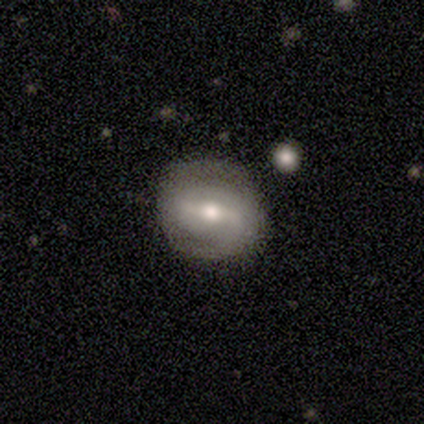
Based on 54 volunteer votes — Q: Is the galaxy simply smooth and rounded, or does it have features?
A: featured or disk — 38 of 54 (70%).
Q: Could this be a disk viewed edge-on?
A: no — 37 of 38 (97%).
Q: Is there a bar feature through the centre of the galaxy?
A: strong — 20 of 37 (54%).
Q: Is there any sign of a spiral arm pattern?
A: yes — 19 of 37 (51%).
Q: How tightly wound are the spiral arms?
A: tight — 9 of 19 (47%).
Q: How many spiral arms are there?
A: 2 — 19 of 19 (100%).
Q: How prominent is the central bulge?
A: moderate — 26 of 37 (70%).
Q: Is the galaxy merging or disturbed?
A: none — 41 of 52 (79%).